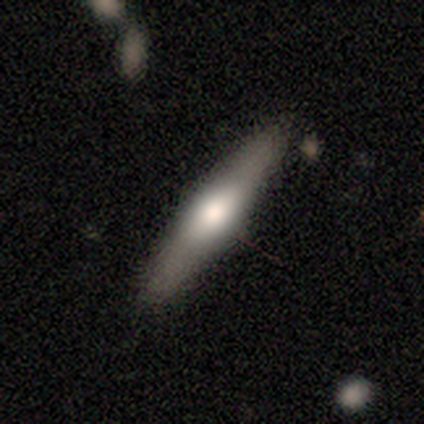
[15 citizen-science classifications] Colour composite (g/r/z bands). It shows a featured or disk galaxy (53%) viewed edge-on (100%) with a rounded central bulge (88%). Merging: none (87%).